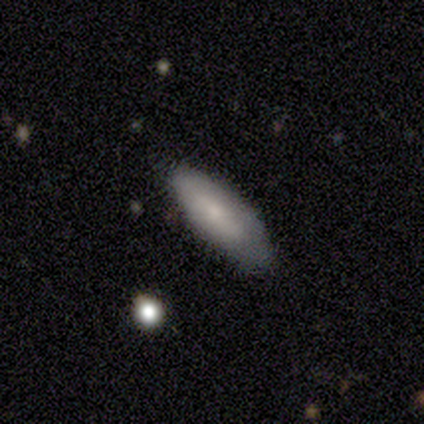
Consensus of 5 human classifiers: A smooth galaxy with no disk features (100%) that is in between round and cigar-shaped (60%).

Vote fractions:
- Smooth or featured? smooth: 100% / featured or disk: 0% / star or artifact: 0%
- How rounded? in between: 60% / cigar-shaped: 40% / round: 0%
- Merging? none: 80% / minor disturbance: 20% / major disturbance: 0% / merger: 0%